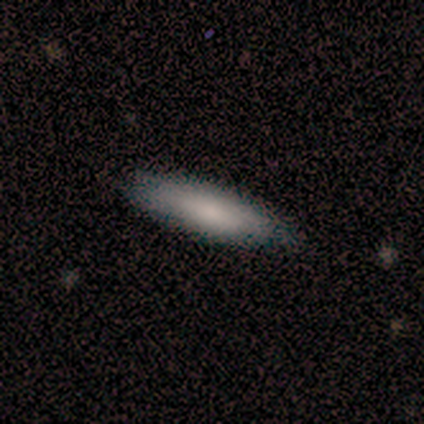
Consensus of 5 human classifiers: smooth_or_featured: smooth (p=1.00)
how_rounded: in between (p=0.60) [alt: cigar-shaped p=0.40]
merging: none (p=0.60) [alt: minor disturbance p=0.40]